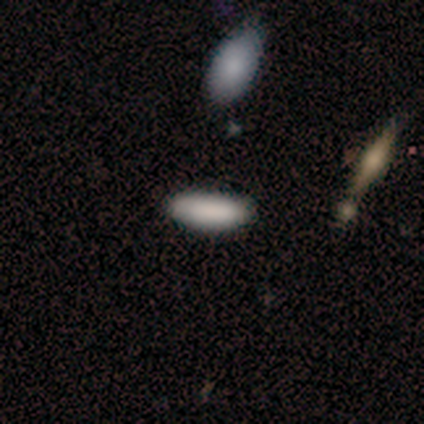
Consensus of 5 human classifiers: Q: Smooth or featured?
A: smooth (80%); runner-up: star or artifact (20%)
Q: How rounded?
A: in between (100%)
Q: Merging?
A: none (100%)